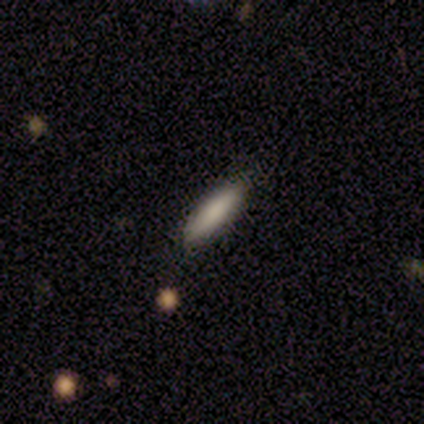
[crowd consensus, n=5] smooth-or-featured: smooth: 60% | star or artifact: 40% | featured or disk: 0%
  how-rounded: cigar-shaped: 67% | in between: 33% | round: 0%
  merging: none: 100% | minor disturbance: 0% | major disturbance: 0% | merger: 0%